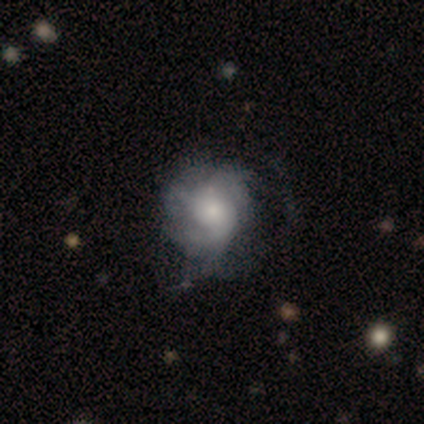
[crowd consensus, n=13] This is possibly a featured or disk galaxy (54%). It is clearly not viewed edge-on (100%). Bar: clearly no (100%). Spiral arm pattern: clearly yes (86%). Spiral arm count: marginally 3 (33%, tied with can't tell). Spiral winding: clearly tight (83%). Central bulge: possibly moderate (57%). Merging: marginally none (40%, tied with minor disturbance).